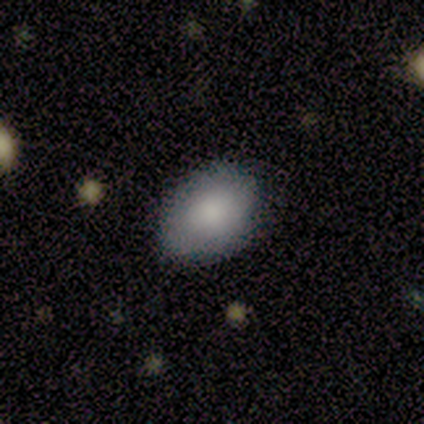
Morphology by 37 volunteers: smooth 81%, featured or disk 14%, star or artifact 5%. Down the decision tree: how rounded — in between (87%); merging — none (83%).